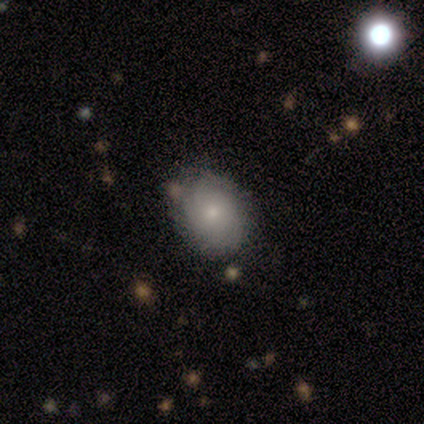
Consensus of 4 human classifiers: A featured or disk galaxy (50%) with no bar (100%), tight (100%) spiral arms (100%) and a moderate central bulge (50%, tied with small). Merging: none (67%).